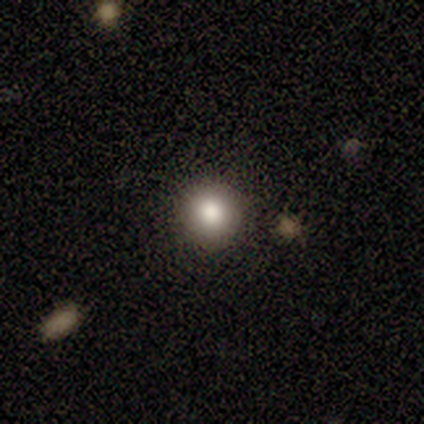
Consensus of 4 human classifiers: Morphology: type=smooth (50%, tied with star or artifact); roundness=round (100%); merging=none (100%).